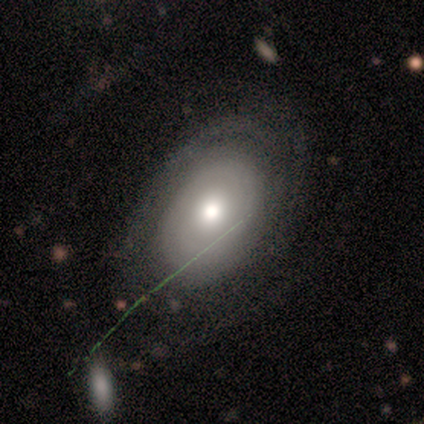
This is clearly a featured or disk galaxy (100%). It is clearly not viewed edge-on (100%). Bar: clearly strong (100%). Spiral arm pattern: clearly yes (100%). Spiral arm count: clearly can't tell (100%). Spiral winding: clearly tight (100%). Central bulge: clearly moderate (100%). Merging: clearly none (100%).